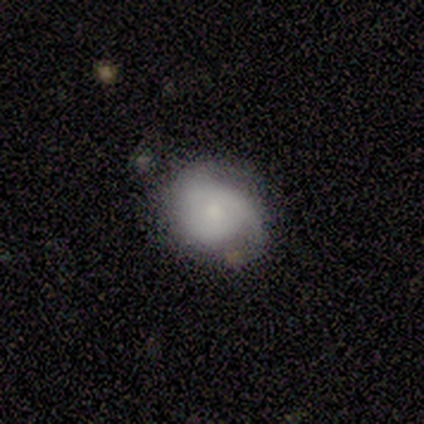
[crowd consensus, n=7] Q: Smooth or featured?
A: featured or disk (57%); runner-up: smooth (29%)
Q: Edge-on disk?
A: no (100%)
Q: Bar?
A: no (100%)
Q: Spiral arms?
A: yes (75%); runner-up: no (25%)
Q: Spiral winding?
A: tight (67%); runner-up: medium (33%)
Q: Spiral arm count?
A: 2 (33%); tied with: 3 (33%); can't tell (33%)
Q: Bulge size?
A: dominant (25%); tied with: moderate (25%); small (25%); none (25%)
Q: Merging?
A: none (50%); tied with: minor disturbance (50%)